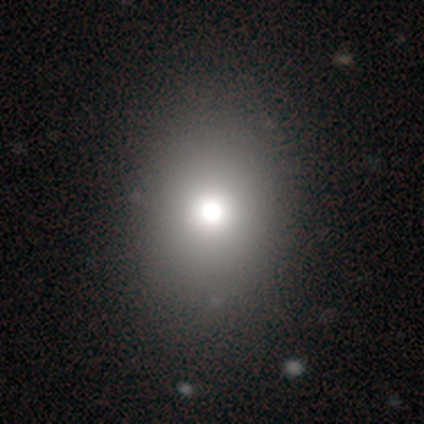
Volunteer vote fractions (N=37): Smooth or featured? 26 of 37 (70%) said smooth. How rounded? 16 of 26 (62%) said in between. Merging? 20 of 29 (69%) said none.